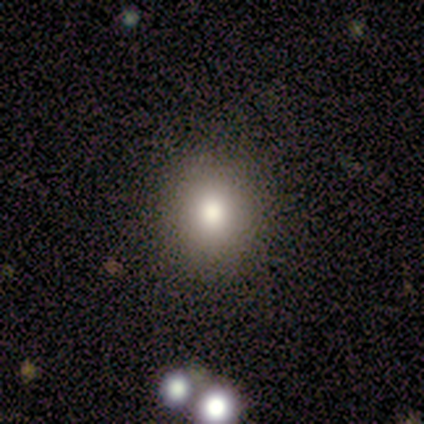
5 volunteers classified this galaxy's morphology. A smooth galaxy with no disk features (60%) that is round (100%). Merging: none (100%).